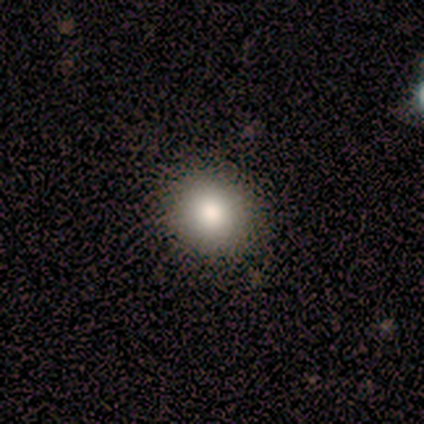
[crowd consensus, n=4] smooth-or-featured: smooth: 100% | featured or disk: 0% | star or artifact: 0%
  how-rounded: round: 75% | in between: 25% | cigar-shaped: 0%
  merging: none: 100% | minor disturbance: 0% | major disturbance: 0% | merger: 0%